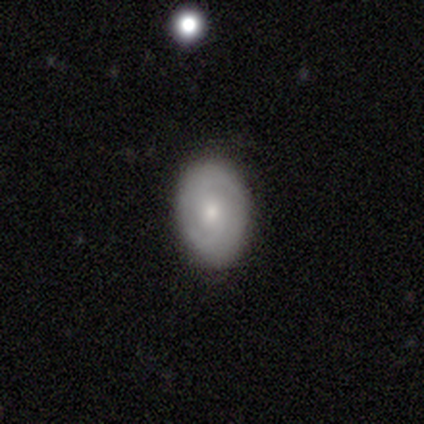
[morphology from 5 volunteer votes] smooth-or-featured: featured or disk: 60% | smooth: 40% | star or artifact: 0%
  disk-edge-on: no: 100% | yes: 0%
    bar: strong: 33% (tied) | weak: 33% (tied) | no: 33% (tied)
    has-spiral-arms: yes: 100% | no: 0%
      spiral-winding: medium: 67% | tight: 33% | loose: 0%
      spiral-arm-count: 2: 67% | 4: 33% | 1: 0% | 3: 0% | more than 4: 0% | can't tell: 0%
    bulge-size: moderate: 67% | small: 33% | dominant: 0% | large: 0% | none: 0%
  merging: none: 60% | minor disturbance: 20% | major disturbance: 20% | merger: 0%